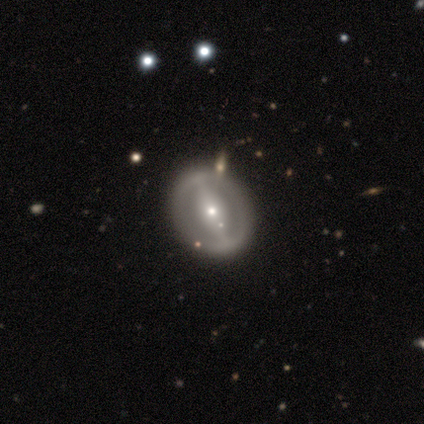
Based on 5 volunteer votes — A smooth galaxy with no disk features (60%) that is round (100%). Merging: none (60%).